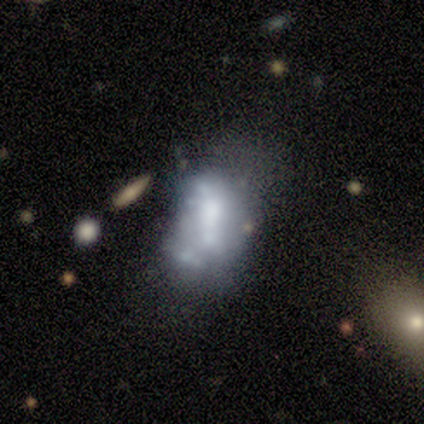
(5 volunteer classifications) smooth-or-featured: featured or disk: 60% | smooth: 20% | star or artifact: 20%
  disk-edge-on: no: 100% | yes: 0%
    bar: no: 100% | strong: 0% | weak: 0%
    has-spiral-arms: no: 100% | yes: 0%
    bulge-size: none: 100% | dominant: 0% | large: 0% | moderate: 0% | small: 0%
  merging: merger: 75% | major disturbance: 25% | none: 0% | minor disturbance: 0%